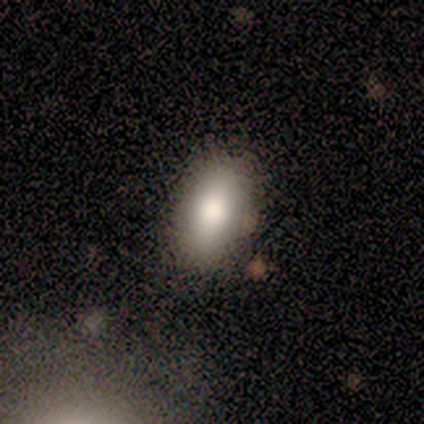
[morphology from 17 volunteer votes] This is likely a smooth galaxy (76%). How rounded: clearly in between (100%). Merging: likely none (75%).